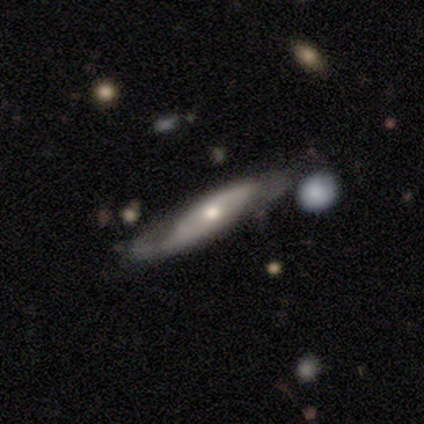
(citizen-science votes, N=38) Smooth or featured? featured or disk (61%)
Edge-on disk? yes (65%)
Edge-on bulge? rounded (73%)
Merging? none (69%)